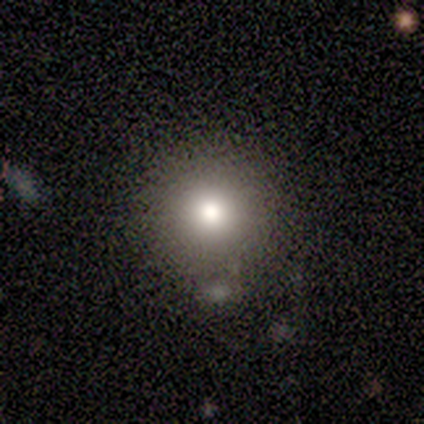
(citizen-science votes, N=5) Q: Smooth or featured?
A: smooth (80%); runner-up: featured or disk (20%)
Q: How rounded?
A: round (100%)
Q: Merging?
A: none (60%); runner-up: minor disturbance (20%)